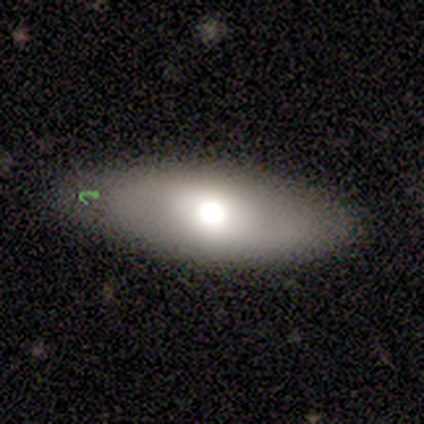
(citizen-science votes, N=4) This is likely a smooth galaxy (75%). How rounded: clearly in between (100%). Merging: likely none (75%).